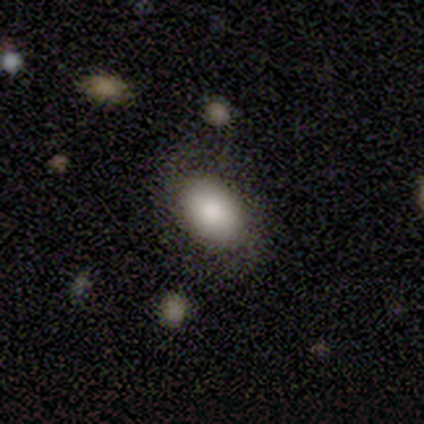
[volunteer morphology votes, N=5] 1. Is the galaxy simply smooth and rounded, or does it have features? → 80% smooth, 20% star or artifact, 0% featured or disk.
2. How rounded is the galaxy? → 100% in between, 0% round, 0% cigar-shaped.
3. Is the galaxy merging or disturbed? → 50% none (tied), 50% minor disturbance (tied), 0% major disturbance, 0% merger.